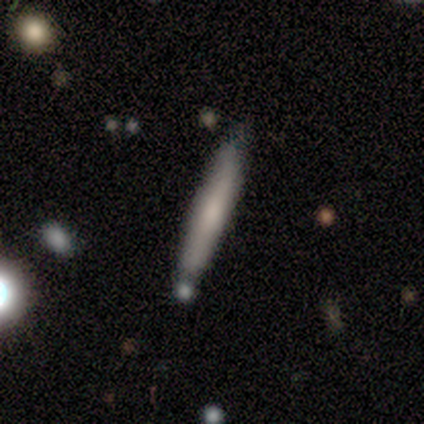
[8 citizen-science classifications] Q: Smooth or featured?
A: smooth (62%); runner-up: featured or disk (38%)
Q: How rounded?
A: cigar-shaped (100%)
Q: Merging?
A: none (62%); runner-up: minor disturbance (25%)